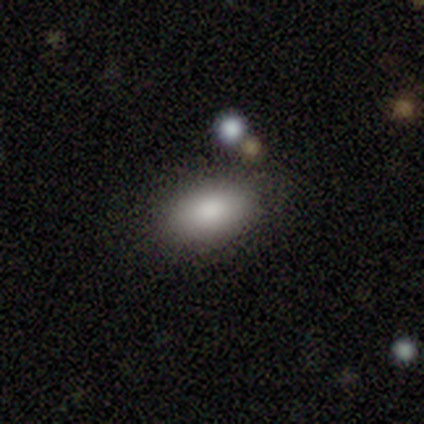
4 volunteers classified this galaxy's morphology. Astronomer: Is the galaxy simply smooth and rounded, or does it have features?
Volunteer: smooth — 100%.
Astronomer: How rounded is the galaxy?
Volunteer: in between — 100%.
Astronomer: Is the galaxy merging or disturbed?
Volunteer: none — 100%.